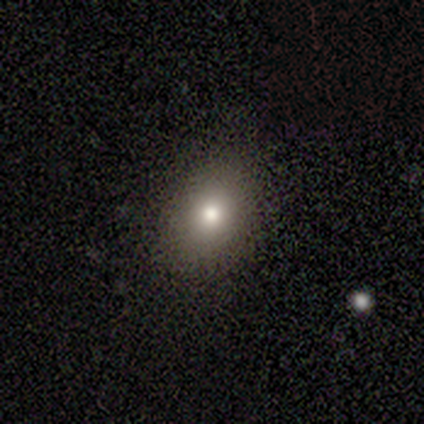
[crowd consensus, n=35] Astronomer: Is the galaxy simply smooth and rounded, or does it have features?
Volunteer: smooth — 89%.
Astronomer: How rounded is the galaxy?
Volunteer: in between — 68%.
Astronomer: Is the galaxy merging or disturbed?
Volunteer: none — 91%.